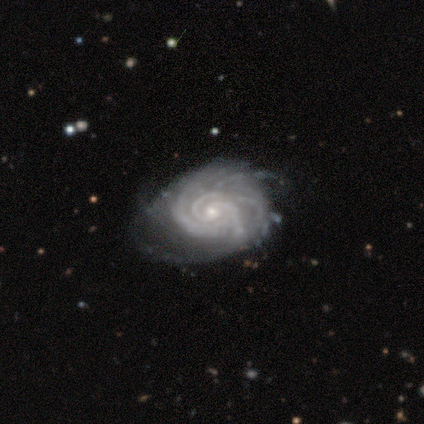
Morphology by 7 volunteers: Smooth or featured? 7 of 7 (100%) said featured or disk. Edge-on disk? 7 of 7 (100%) said no. Bar? 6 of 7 (86%) said no. Spiral arms? 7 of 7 (100%) said yes. Spiral winding? 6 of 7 (86%) said tight. Spiral arm count? 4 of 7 (57%) said 3. Bulge size? 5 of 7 (71%) said small. Merging? 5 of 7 (71%) said none.